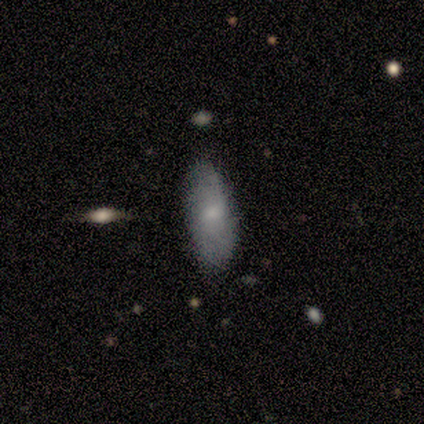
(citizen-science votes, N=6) This is possibly a smooth galaxy (50%, tied with featured or disk). How rounded: clearly in between (100%). Merging: clearly none (100%).